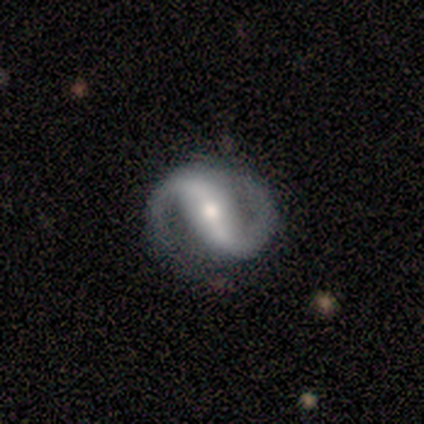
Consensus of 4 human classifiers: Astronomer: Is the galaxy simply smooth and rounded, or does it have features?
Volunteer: featured or disk — 100%.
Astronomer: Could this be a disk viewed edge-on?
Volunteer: no — 100%.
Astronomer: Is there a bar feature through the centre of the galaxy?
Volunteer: strong — 50%, tied with weak at 50%.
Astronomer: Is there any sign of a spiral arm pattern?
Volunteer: yes — 100%.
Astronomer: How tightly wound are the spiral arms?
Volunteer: medium — 50%.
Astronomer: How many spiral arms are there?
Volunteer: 2 — 75%.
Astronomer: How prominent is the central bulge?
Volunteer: small — 50%.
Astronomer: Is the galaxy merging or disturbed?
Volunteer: none — 100%.